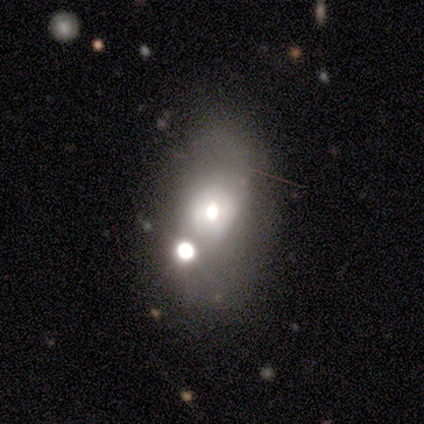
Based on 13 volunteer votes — Morphology: type=smooth (54%); roundness=in between (86%); merging=none (50%).